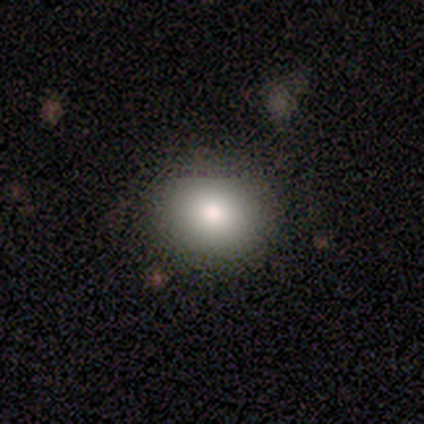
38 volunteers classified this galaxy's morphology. type=smooth (89%); roundness=round (79%); merging=none (94%).